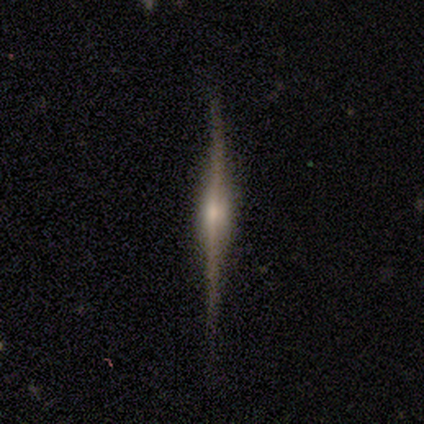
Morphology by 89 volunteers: This is likely a featured or disk galaxy (79%). It is clearly viewed edge-on (100%). Edge-on bulge: likely rounded (64%). Merging: clearly none (80%).